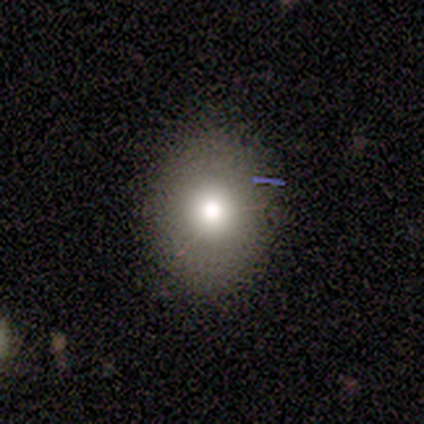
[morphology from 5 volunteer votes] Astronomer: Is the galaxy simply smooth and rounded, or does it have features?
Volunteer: smooth — 100%.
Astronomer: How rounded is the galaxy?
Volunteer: round — 60% (runner-up: in between, 40%).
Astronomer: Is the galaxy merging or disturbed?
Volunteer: none — 80%.